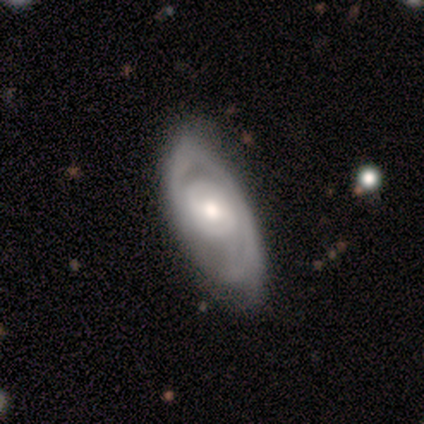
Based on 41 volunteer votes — Smooth or featured: featured or disk — 95% (smooth — 5%)
Edge-on disk: no — 95% (yes — 5%)
Bar: no — 51% (weak — 41%)
Spiral arms: yes — 78% (no — 22%)
Spiral winding: tight — 48% (medium — 45%)
Spiral arm count: 2 — 38% (can't tell — 31%)
Bulge size: moderate — 78% (small — 16%)
Merging: none — 46% (minor disturbance — 37%)